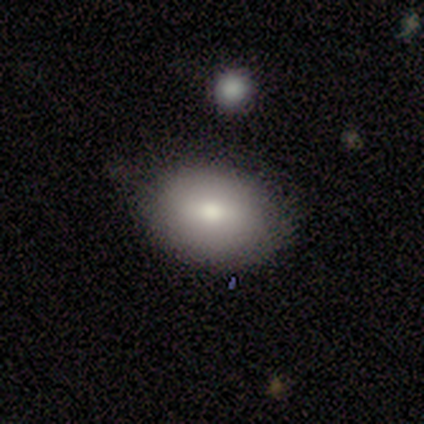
This is likely a smooth galaxy (75%). How rounded: clearly in between (100%). Merging: clearly none (100%).